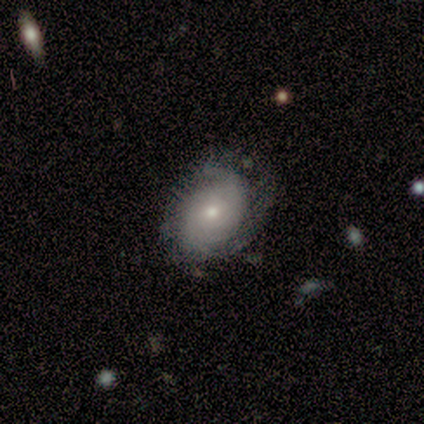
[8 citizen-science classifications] Smooth or featured? smooth (50%, tied with featured or disk)
How rounded? round (50%, tied with in between)
Merging? none (62%)